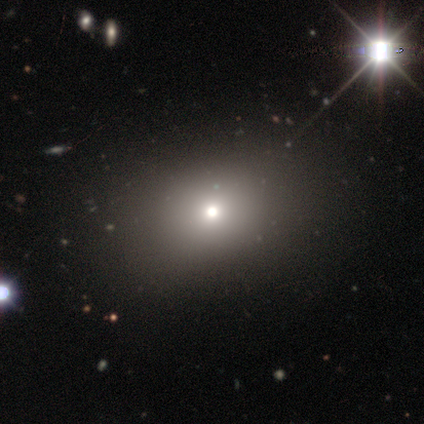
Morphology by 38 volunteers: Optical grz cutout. It shows a smooth galaxy with no disk features (71%) that is round (56%). Merging: none (63%).